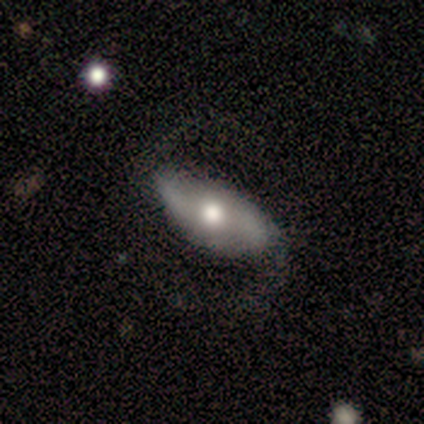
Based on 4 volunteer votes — Smooth or featured: featured or disk — 75% (smooth — 25%)
Edge-on disk: no — 100%
Bar: weak — 67% (strong — 33%)
Spiral arms: yes — 100%
Spiral winding: medium — 67% (loose — 33%)
Spiral arm count: 2 — 100%
Bulge size: moderate — 100%
Merging: none — 75% (minor disturbance — 25%)